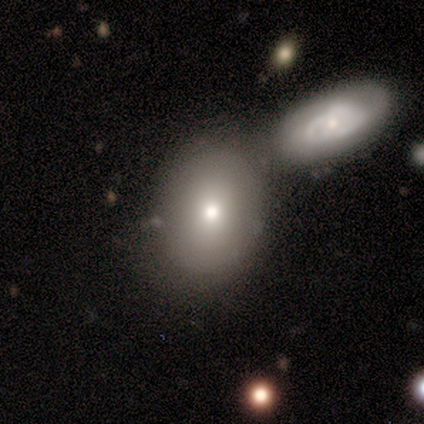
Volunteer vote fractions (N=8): Smooth or featured?
  - smooth: 50% *
  - featured or disk: 38%
  - star or artifact: 12%
How rounded?
  - round: 50% * (tied)
  - in between: 50% * (tied)
  - cigar-shaped: 0%
Merging?
  - none: 43% *
  - merger: 29%
  - minor disturbance: 14%
  - major disturbance: 14%